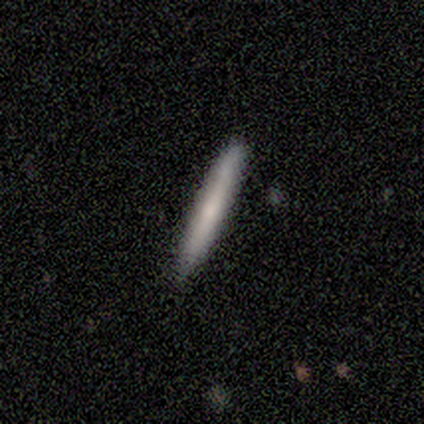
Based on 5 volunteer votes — smooth-or-featured: smooth: 60% | featured or disk: 40% | star or artifact: 0%
  how-rounded: cigar-shaped: 100% | round: 0% | in between: 0%
  merging: none: 80% | minor disturbance: 20% | major disturbance: 0% | merger: 0%